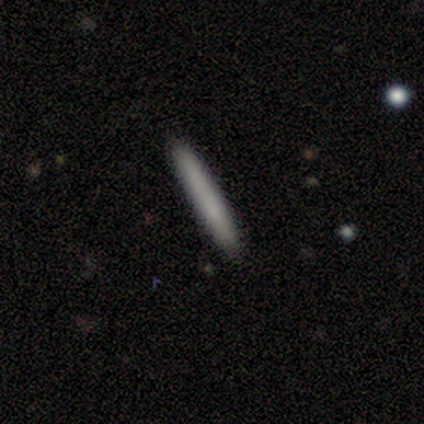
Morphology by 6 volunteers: Overall: smooth (100%). How rounded: cigar-shaped (83%). Merging: none (83%).